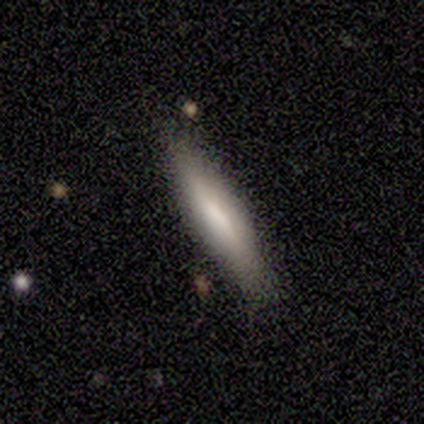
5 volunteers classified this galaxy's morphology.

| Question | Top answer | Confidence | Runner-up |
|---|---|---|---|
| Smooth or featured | smooth | 100% | — |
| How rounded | cigar-shaped | 100% | — |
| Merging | none | 100% | — |